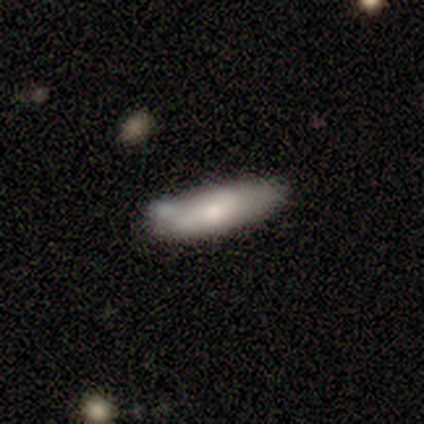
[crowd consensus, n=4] smooth-or-featured: smooth: 100% | featured or disk: 0% | star or artifact: 0%
  how-rounded: cigar-shaped: 100% | round: 0% | in between: 0%
  merging: none: 100% | minor disturbance: 0% | major disturbance: 0% | merger: 0%